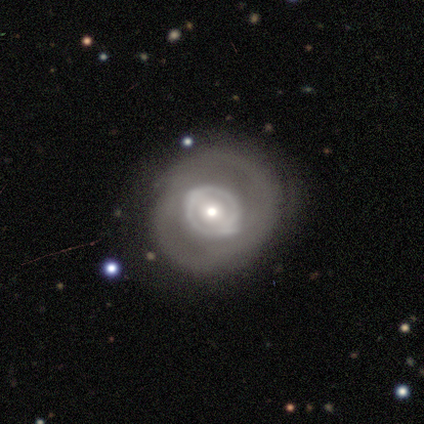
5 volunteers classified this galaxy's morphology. Smooth or featured? featured or disk (80%)
Edge-on disk? no (100%)
Bar? strong (50%, tied with weak)
Spiral arms? yes (50%, tied with no)
Spiral winding? tight (50%, tied with medium)
Spiral arm count? 2 (100%)
Bulge size? small (50%)
Merging? none (80%)